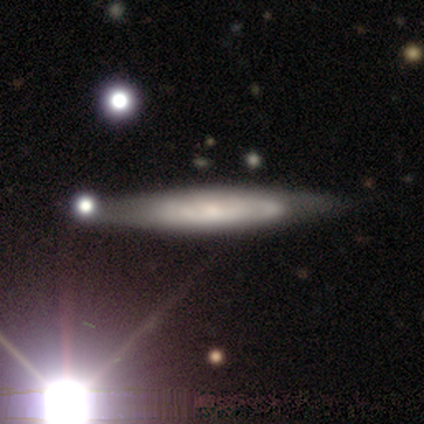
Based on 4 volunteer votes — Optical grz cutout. It shows a featured or disk galaxy (75%) with a strong bar (50%, tied with no), 2 (100%) medium (100%) spiral arms (50%, tied with no) and a small central bulge (100%). Merging: none (75%).